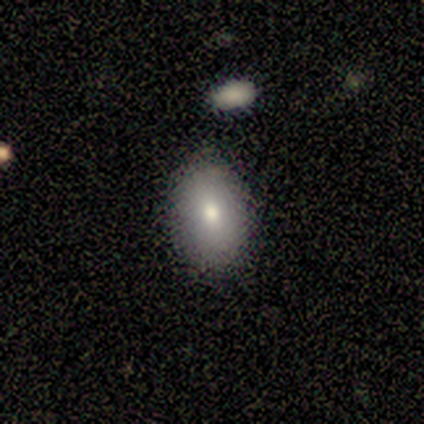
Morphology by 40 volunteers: This is clearly a smooth galaxy (90%). How rounded: clearly in between (83%). Merging: likely none (79%).